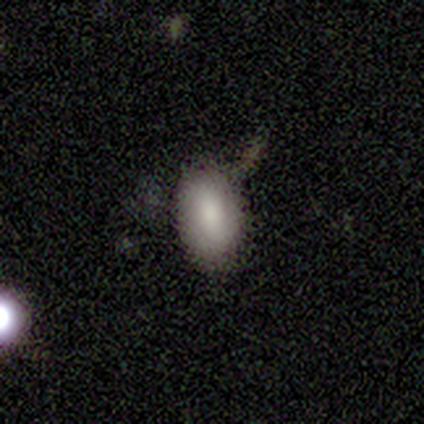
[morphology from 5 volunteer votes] A smooth galaxy with no disk features (80%) that is in between round and cigar-shaped (100%). Merging: none (80%).